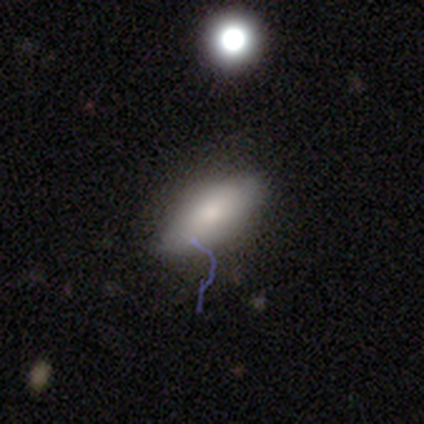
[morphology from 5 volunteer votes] type=smooth (60%); roundness=in between (67%); merging=none (100%).